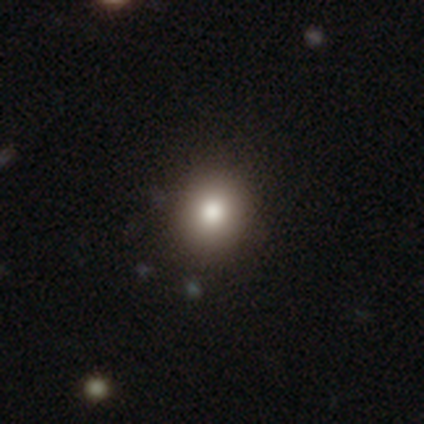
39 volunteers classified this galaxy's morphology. Volunteers were most divided on "smooth or featured": smooth: 74%, star or artifact: 18%, featured or disk: 8%. More confident: merging — none (88%); how rounded — round (86%).